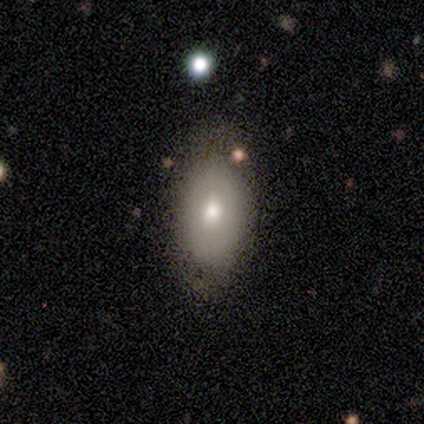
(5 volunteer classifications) Smooth or featured: smooth — 80% (featured or disk — 20%)
How rounded: in between — 100%
Merging: none — 60% (minor disturbance — 40%)